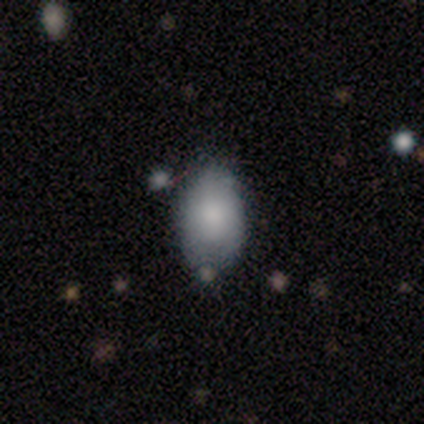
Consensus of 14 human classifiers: Smooth or featured? 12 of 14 (86%) said smooth. How rounded? 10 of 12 (83%) said in between. Merging? 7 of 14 (50%) said none.